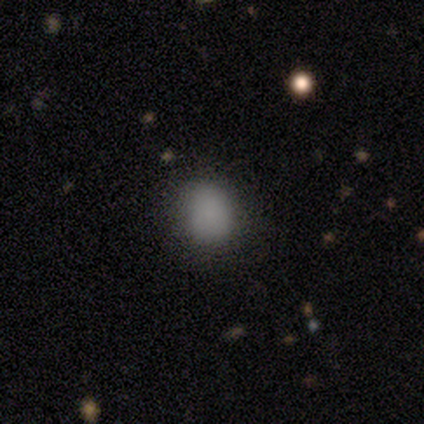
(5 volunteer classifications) smooth_or_featured: smooth (p=0.80) [alt: star or artifact p=0.20]
how_rounded: round (p=0.50) [tied with: in between p=0.50]
merging: none (p=0.75) [alt: minor disturbance p=0.25]